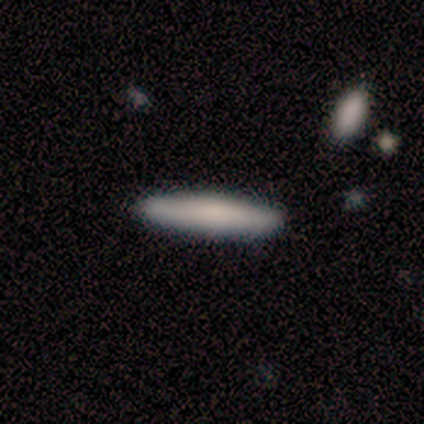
Overall: smooth (100%). How rounded: cigar-shaped (80%). Merging: none (80%).